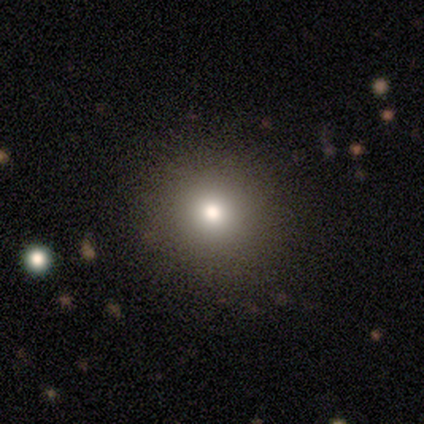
Smooth or featured: smooth — 100%
How rounded: round — 100%
Merging: none — 100%